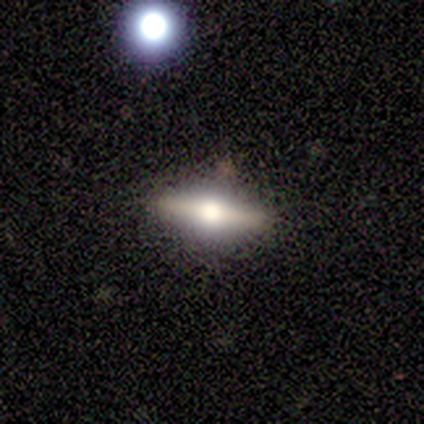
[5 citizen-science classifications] featured or disk 80%, smooth 20%, star or artifact 0%. Down the decision tree: edge-on disk — yes (100%); edge-on bulge — rounded (100%); merging — none (100%).